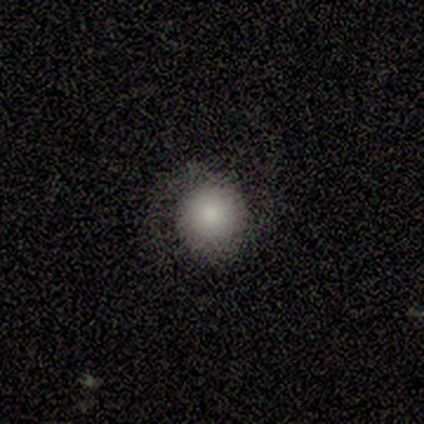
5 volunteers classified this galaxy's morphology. Smooth or featured? smooth (80%)
How rounded? round (100%)
Merging? none (60%)